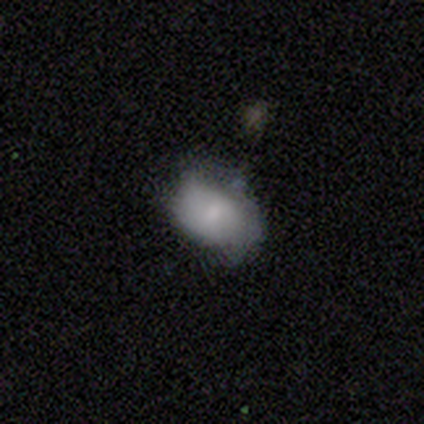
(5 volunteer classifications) smooth_or_featured: smooth (p=0.60) [alt: featured or disk p=0.40]
how_rounded: in between (p=0.67) [alt: round p=0.33]
merging: none (p=0.40) [tied with: minor disturbance p=0.40]